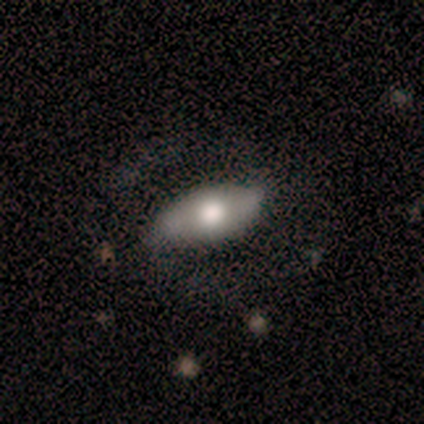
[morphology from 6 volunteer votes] smooth_or_featured: smooth (p=0.50) [alt: featured or disk p=0.33]
how_rounded: in between (p=1.00)
merging: minor disturbance (p=0.60) [alt: none p=0.40]